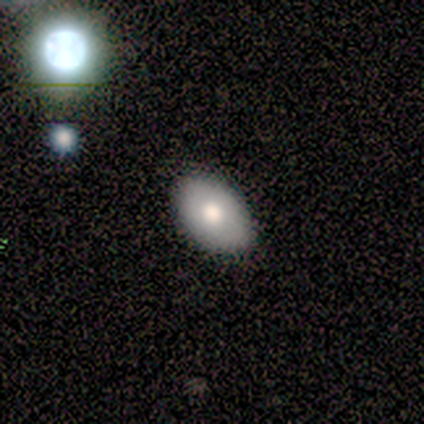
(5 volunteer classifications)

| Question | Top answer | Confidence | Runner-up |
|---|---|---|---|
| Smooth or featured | smooth | 60% | featured or disk (20%) |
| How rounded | in between | 100% | — |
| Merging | none | 75% | minor disturbance (25%) |